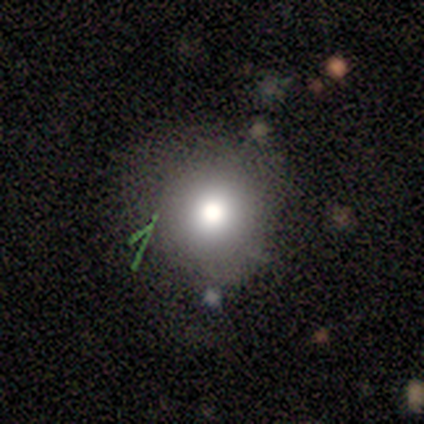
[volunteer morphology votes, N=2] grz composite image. It shows a smooth galaxy with no disk features (100%) that is round (100%). Merging: none (50%, tied with major disturbance).